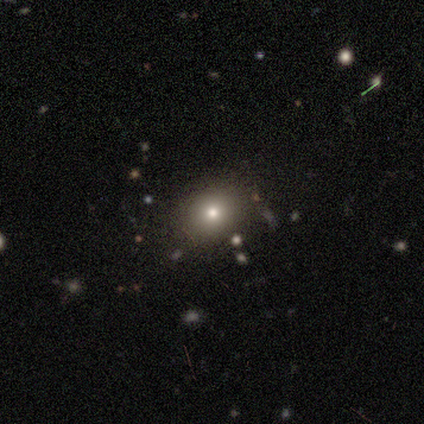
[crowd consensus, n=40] A smooth galaxy with no disk features (72%) that is round (59%). Merging: none (93%).